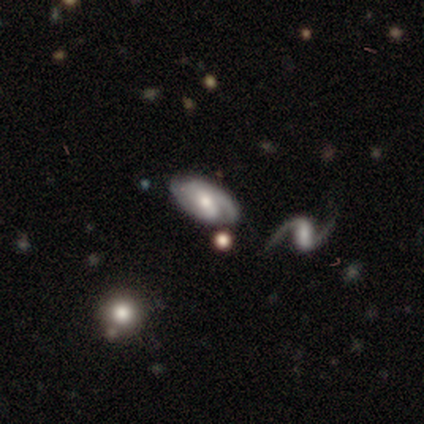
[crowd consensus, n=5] Smooth or featured: featured or disk — 60% (smooth — 20%)
Edge-on disk: no — 100%
Bar: no — 100%
Spiral arms: yes — 100%
Spiral winding: medium — 100%
Spiral arm count: 2 — 33% (tied with 3 — 33%; can't tell — 33%)
Bulge size: moderate — 100%
Merging: none — 100%